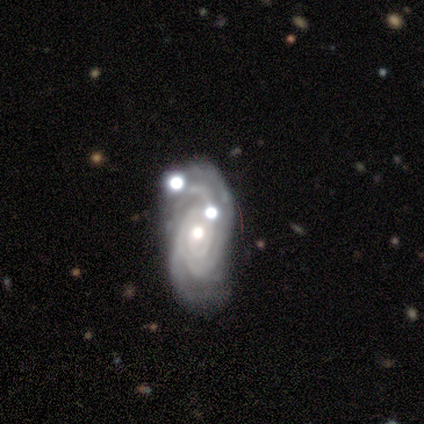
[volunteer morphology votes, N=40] Smooth or featured? featured or disk (92%)
Edge-on disk? no (92%)
Bar? no (76%)
Spiral arms? yes (97%)
Spiral winding? tight (70%)
Spiral arm count? 3 (45%)
Bulge size? moderate (65%)
Merging? none (52%)